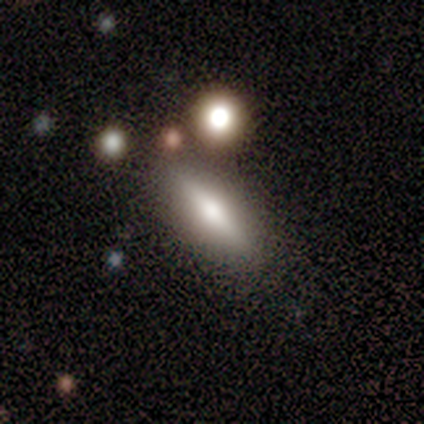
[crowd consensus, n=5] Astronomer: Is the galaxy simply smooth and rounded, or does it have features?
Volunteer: smooth — 40%, tied with star or artifact at 40%.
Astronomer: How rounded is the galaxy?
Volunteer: cigar-shaped — 100%.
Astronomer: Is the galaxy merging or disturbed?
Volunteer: none — 67%.